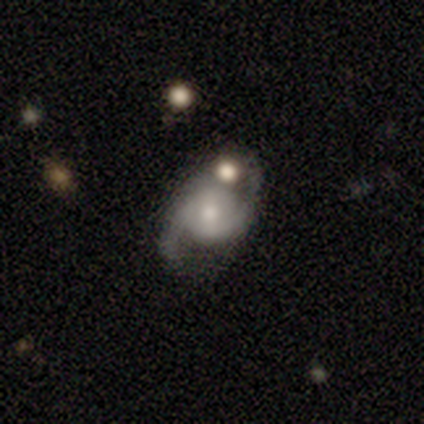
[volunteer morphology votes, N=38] A featured or disk galaxy (84%) with no bar (44%), 2 (97%) medium (48%) spiral arms (91%) and a moderate central bulge (47%, tied with small). Merging: none (66%).